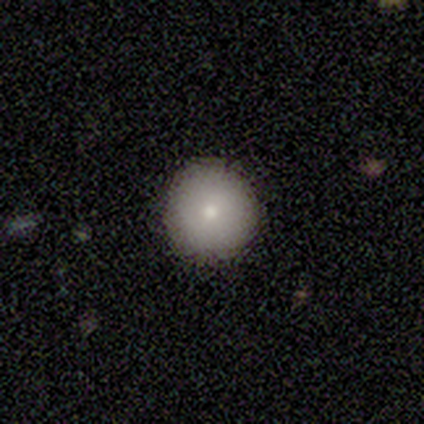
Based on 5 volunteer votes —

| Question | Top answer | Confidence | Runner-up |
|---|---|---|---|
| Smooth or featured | smooth | 80% | featured or disk (20%) |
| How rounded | round | 100% | — |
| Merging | none | 80% | minor disturbance (20%) |